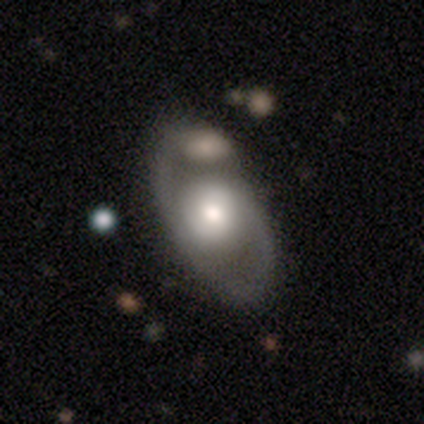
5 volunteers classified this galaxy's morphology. smooth 60%, featured or disk 40%, star or artifact 0%. Down the decision tree: how rounded — in between (100%); merging — none (80%).